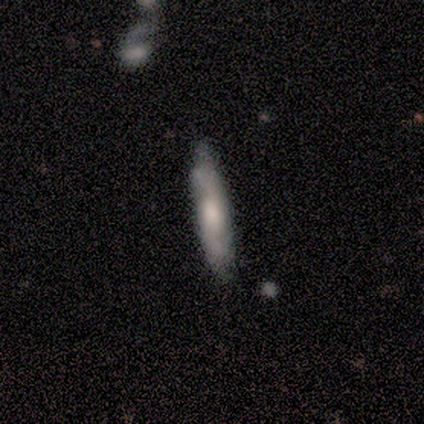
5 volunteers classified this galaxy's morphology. Smooth or featured?
  - featured or disk: 80% *
  - smooth: 20%
  - star or artifact: 0%
Edge-on disk?
  - yes: 100% *
  - no: 0%
Edge-on bulge?
  - none: 50% * (tied)
  - rounded: 50% * (tied)
  - boxy: 0%
Merging?
  - none: 80% *
  - minor disturbance: 20%
  - major disturbance: 0%
  - merger: 0%